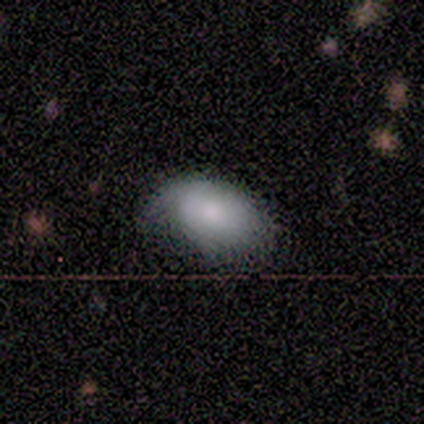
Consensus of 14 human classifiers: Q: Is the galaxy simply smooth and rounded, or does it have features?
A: smooth — 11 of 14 (79%).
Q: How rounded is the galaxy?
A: in between — 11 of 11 (100%).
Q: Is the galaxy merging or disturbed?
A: minor disturbance — 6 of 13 (46%).